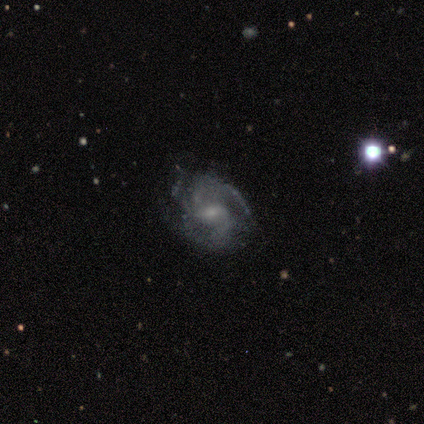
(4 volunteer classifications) Smooth or featured? 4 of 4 (100%) said featured or disk. Edge-on disk? 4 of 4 (100%) said no. Bar? 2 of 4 (50%) said weak. Spiral arms? 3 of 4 (75%) said yes. Spiral winding? 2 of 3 (67%) said medium. Spiral arm count? 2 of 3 (67%) said 3. Bulge size? 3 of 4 (75%) said small. Merging? 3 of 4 (75%) said none.